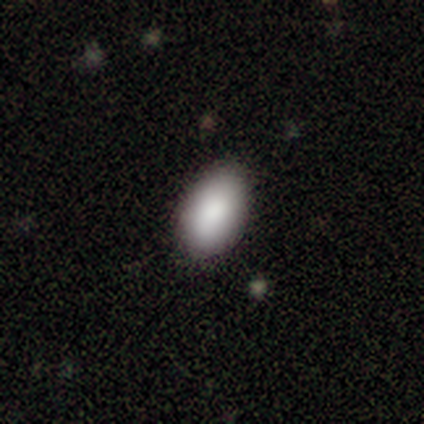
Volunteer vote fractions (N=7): Smooth or featured? smooth (71%)
How rounded? in between (100%)
Merging? none (100%)